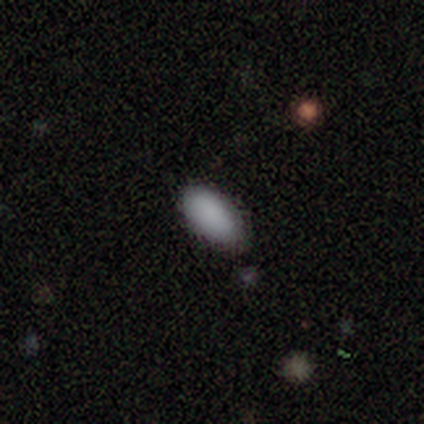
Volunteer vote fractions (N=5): smooth 100%, featured or disk 0%, star or artifact 0%. Down the decision tree: how rounded — in between (100%); merging — none (100%).